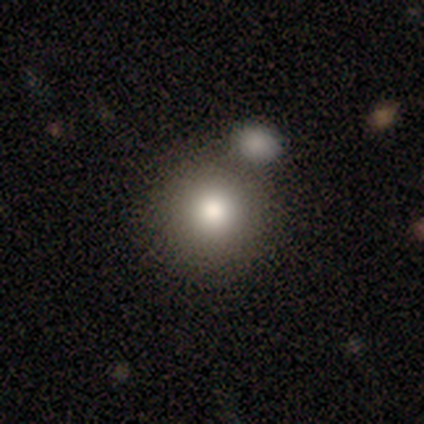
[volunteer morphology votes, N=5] Q: Smooth or featured?
A: smooth (60%); runner-up: star or artifact (40%)
Q: How rounded?
A: round (100%)
Q: Merging?
A: minor disturbance (67%); runner-up: merger (33%)